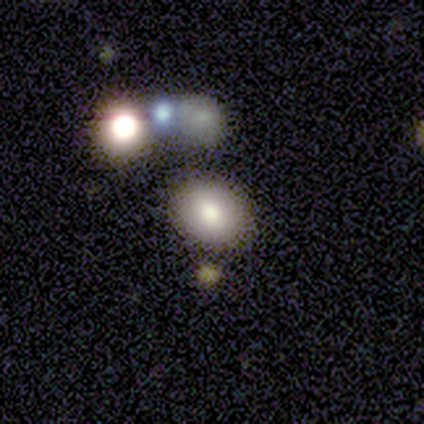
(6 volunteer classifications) Smooth or featured: smooth — 100%
How rounded: in between — 67% (round — 33%)
Merging: none — 67% (minor disturbance — 33%)